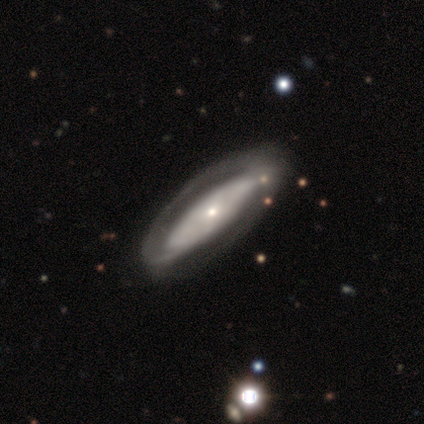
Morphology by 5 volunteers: A featured or disk galaxy (60%) with no bar (100%), 1 (67%) loose (67%) spiral arms (100%) and a dominant central bulge (33%, tied with moderate and none).

Vote fractions:
- Smooth or featured? featured or disk: 60% / smooth: 40% / star or artifact: 0%
- Edge-on disk? no: 100% / yes: 0%
- Bar? no: 100% / strong: 0% / weak: 0%
- Spiral arms? yes: 100% / no: 0%
- Spiral winding? loose: 67% / tight: 33% / medium: 0%
- Spiral arm count? 1: 67% / 2: 33% / 3: 0% / 4: 0% / more than 4: 0% / can't tell: 0%
- Bulge size? dominant: 33% (tied) / moderate: 33% (tied) / none: 33% (tied) / large: 0% / small: 0%
- Merging? none: 80% / minor disturbance: 20% / major disturbance: 0% / merger: 0%